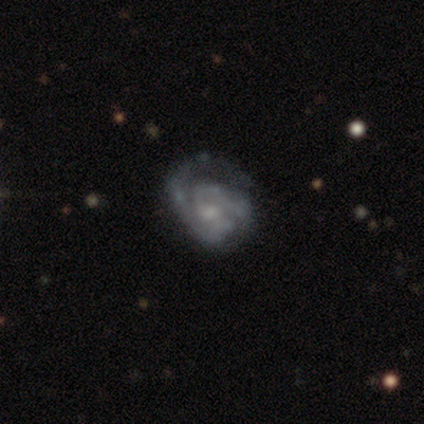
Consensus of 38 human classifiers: Overall: featured or disk (84%). Edge-on disk: no (100%). Bar: no (59%; weak 41%). Spiral arms: yes (84%). Spiral arm count: 2 (70%). Spiral winding: tight (52%; medium 41%). Bulge size: small (59%; moderate 28%). Merging: none (51%; major disturbance 29%).